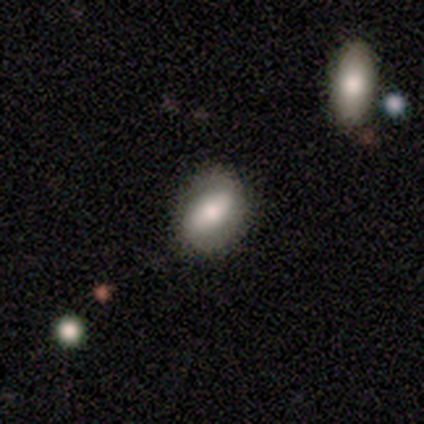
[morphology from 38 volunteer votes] A smooth galaxy with no disk features (61%) that is in between round and cigar-shaped (78%).

Vote fractions:
- Smooth or featured? smooth: 61% / featured or disk: 24% / star or artifact: 16%
- How rounded? in between: 78% / round: 22% / cigar-shaped: 0%
- Merging? none: 75% / minor disturbance: 19% / major disturbance: 3% / merger: 3%